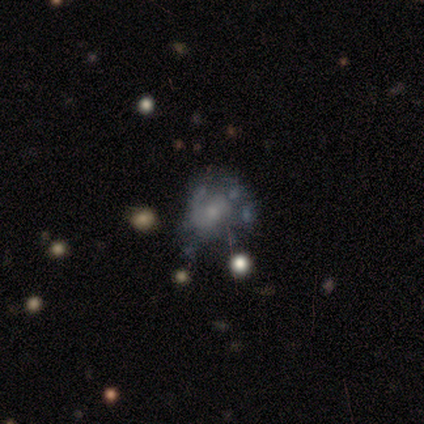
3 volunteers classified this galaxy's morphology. Smooth or featured? 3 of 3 (100%) said featured or disk. Edge-on disk? 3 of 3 (100%) said no. Bar? 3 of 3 (100%) said no. Spiral arms? 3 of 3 (100%) said no. Bulge size? 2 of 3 (67%) said small. Merging? 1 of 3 (33%, tied with minor disturbance and major disturbance) said none.